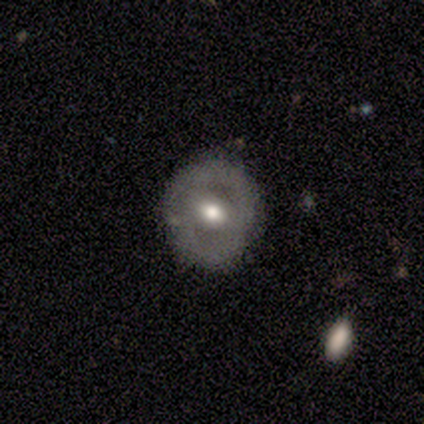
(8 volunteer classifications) Q: Smooth or featured?
A: featured or disk (62%); runner-up: smooth (25%)
Q: Edge-on disk?
A: no (100%)
Q: Bar?
A: weak (80%); runner-up: no (20%)
Q: Spiral arms?
A: no (80%); runner-up: yes (20%)
Q: Bulge size?
A: moderate (80%); runner-up: small (20%)
Q: Merging?
A: none (86%); runner-up: minor disturbance (14%)